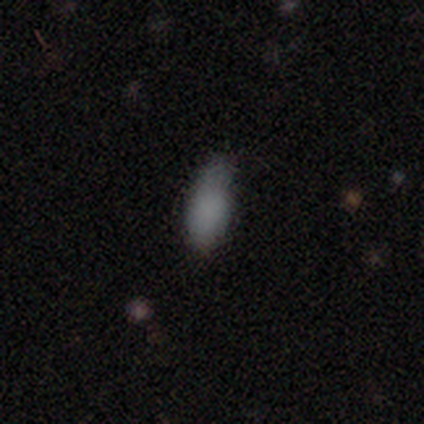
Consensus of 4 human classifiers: Q: Smooth or featured?
A: smooth (75%); runner-up: star or artifact (25%)
Q: How rounded?
A: cigar-shaped (67%); runner-up: in between (33%)
Q: Merging?
A: none (33%); tied with: minor disturbance (33%); major disturbance (33%)